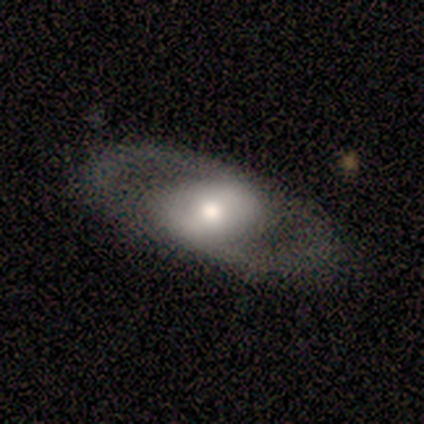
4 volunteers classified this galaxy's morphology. Q: Smooth or featured?
A: smooth (50%); tied with: featured or disk (50%)
Q: How rounded?
A: in between (100%)
Q: Merging?
A: none (100%)